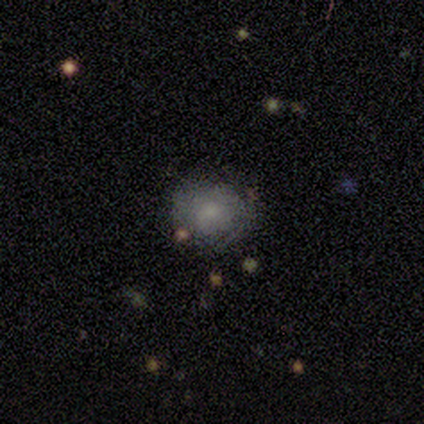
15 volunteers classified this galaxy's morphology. Smooth or featured? smooth (73%)
How rounded? round (73%)
Merging? none (85%)